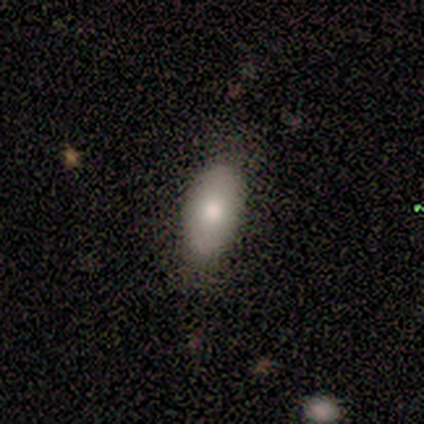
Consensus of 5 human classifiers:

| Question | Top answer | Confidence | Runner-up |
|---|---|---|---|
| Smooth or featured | smooth | 100% | — |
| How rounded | in between | 100% | — |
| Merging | none | 80% | minor disturbance (20%) |